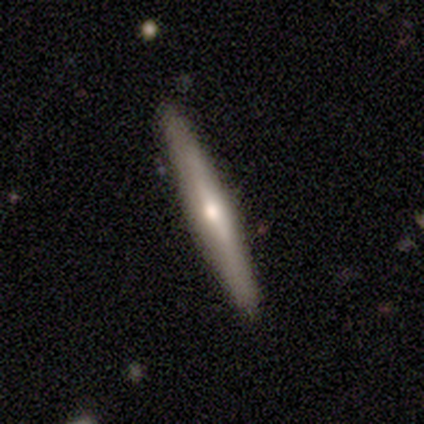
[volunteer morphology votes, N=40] smooth-or-featured: featured or disk: 57% | smooth: 42% | star or artifact: 0%
  disk-edge-on: yes: 100% | no: 0%
    edge-on-bulge: rounded: 83% | none: 17% | boxy: 0%
  merging: none: 92% | minor disturbance: 8% | major disturbance: 0% | merger: 0%